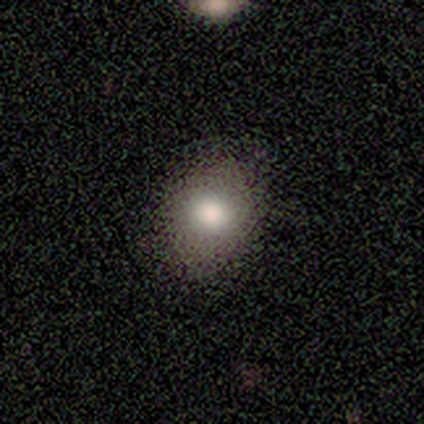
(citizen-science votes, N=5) Smooth or featured?
  - smooth: 80% *
  - star or artifact: 20%
  - featured or disk: 0%
How rounded?
  - round: 50% * (tied)
  - in between: 50% * (tied)
  - cigar-shaped: 0%
Merging?
  - none: 75% *
  - minor disturbance: 25%
  - major disturbance: 0%
  - merger: 0%